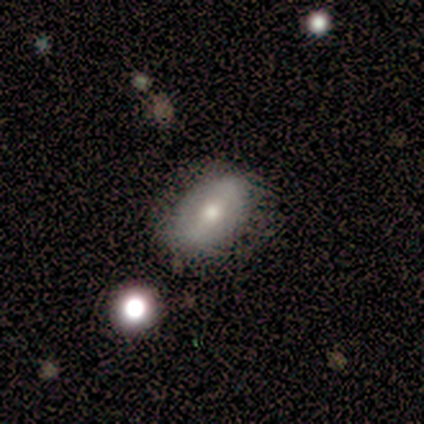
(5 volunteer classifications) Q: Smooth or featured?
A: featured or disk (60%); runner-up: smooth (40%)
Q: Edge-on disk?
A: no (100%)
Q: Bar?
A: no (67%); runner-up: strong (33%)
Q: Spiral arms?
A: no (67%); runner-up: yes (33%)
Q: Bulge size?
A: moderate (100%)
Q: Merging?
A: none (100%)